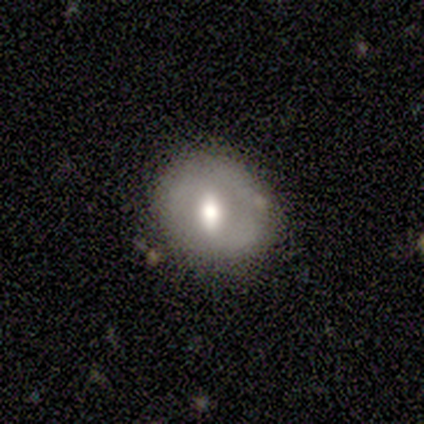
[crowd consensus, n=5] This appears to be a smooth galaxy with no disk features (60%) that is round (100%). Merging: none (80%).